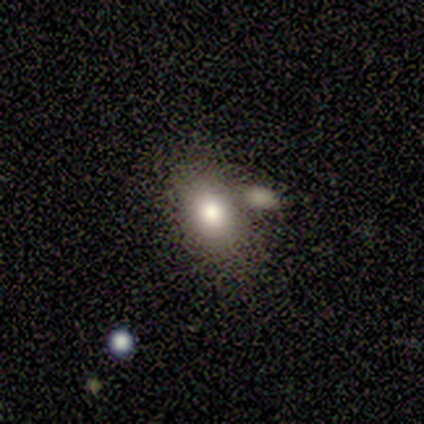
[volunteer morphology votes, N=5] A smooth galaxy with no disk features (60%) that is in between round and cigar-shaped (100%).

Vote fractions:
- Smooth or featured? smooth: 60% / featured or disk: 20% / star or artifact: 20%
- How rounded? in between: 100% / round: 0% / cigar-shaped: 0%
- Merging? none: 50% (tied) / merger: 50% (tied) / minor disturbance: 0% / major disturbance: 0%